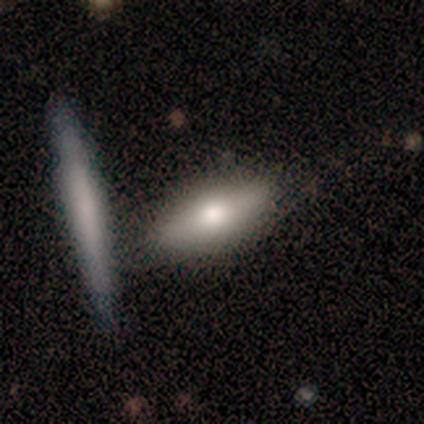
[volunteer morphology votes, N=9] smooth_or_featured: smooth (p=0.67) [alt: featured or disk p=0.33]
how_rounded: cigar-shaped (p=0.67) [alt: in between p=0.33]
merging: none (p=0.89) [alt: merger p=0.11]